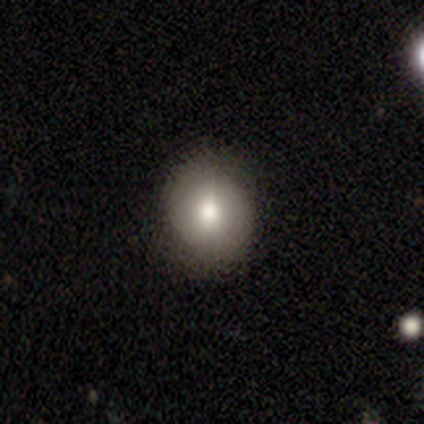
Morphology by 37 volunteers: Q: Smooth or featured?
A: smooth (68%); runner-up: featured or disk (24%)
Q: How rounded?
A: round (72%); runner-up: in between (28%)
Q: Merging?
A: none (85%); runner-up: minor disturbance (12%)